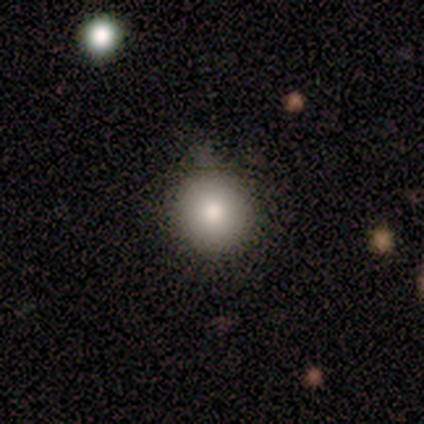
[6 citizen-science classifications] Smooth or featured? 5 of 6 (83%) said smooth. How rounded? 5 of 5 (100%) said round. Merging? 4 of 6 (67%) said none.